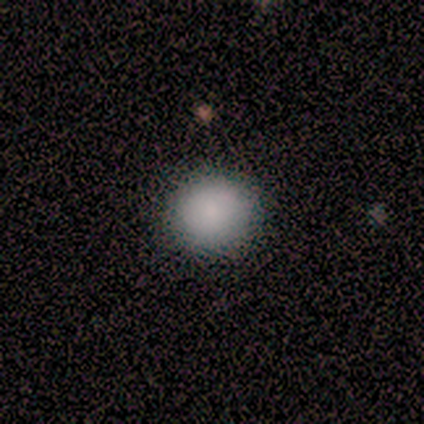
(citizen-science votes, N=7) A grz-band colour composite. It shows a smooth galaxy with no disk features (100%) that is round (86%). Merging: none (100%).